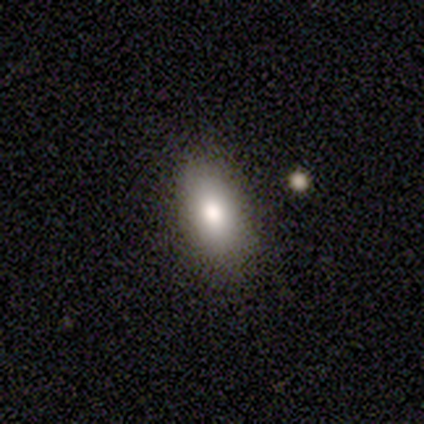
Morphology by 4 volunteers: This is clearly a smooth galaxy (100%). How rounded: clearly in between (100%). Merging: likely none (75%).